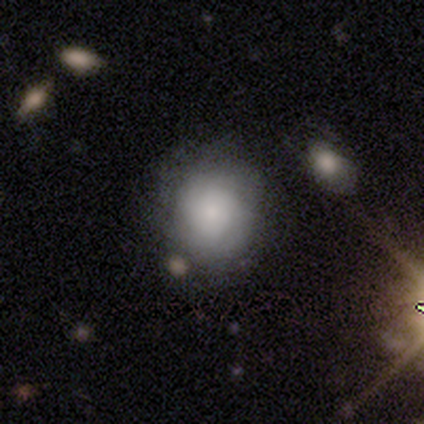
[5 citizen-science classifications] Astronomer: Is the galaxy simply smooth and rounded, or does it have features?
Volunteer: smooth — 60%.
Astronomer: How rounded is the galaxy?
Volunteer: round — 100%.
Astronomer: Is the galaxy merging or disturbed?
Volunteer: none — 75%.